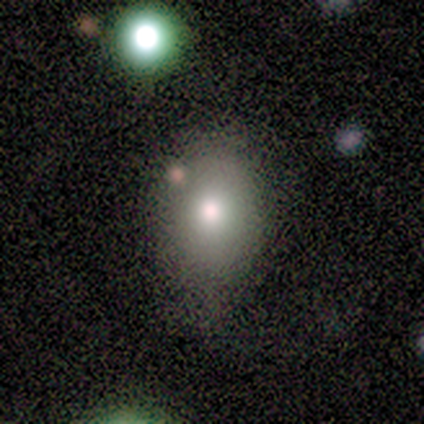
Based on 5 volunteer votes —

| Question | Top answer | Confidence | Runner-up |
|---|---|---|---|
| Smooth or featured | smooth | 80% | star or artifact (20%) |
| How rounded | round | 50% | tied: in between (50%) |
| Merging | none | 75% | minor disturbance (25%) |